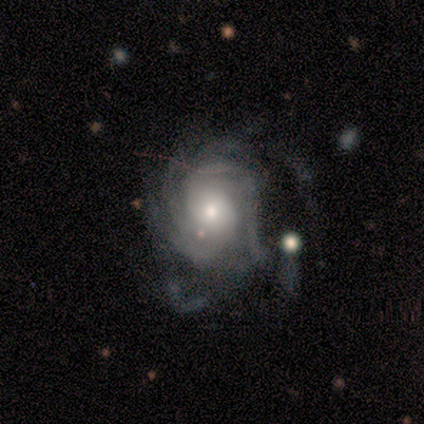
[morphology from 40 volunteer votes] This appears to be a featured or disk galaxy (100%) with no bar (85%), tight (66%) spiral arms (95%) and a moderate central bulge (45%, tied with small). Merging: major disturbance (35%).